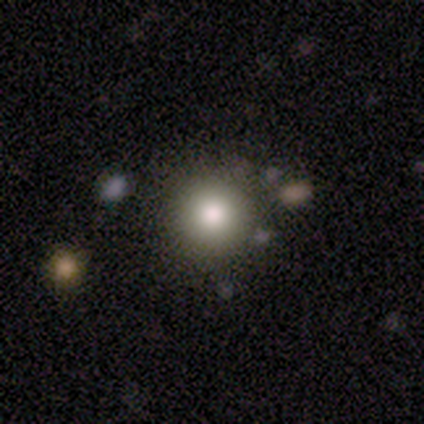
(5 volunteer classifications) Smooth or featured?
  - smooth: 80% *
  - star or artifact: 20%
  - featured or disk: 0%
How rounded?
  - round: 100% *
  - in between: 0%
  - cigar-shaped: 0%
Merging?
  - none: 75% *
  - minor disturbance: 25%
  - major disturbance: 0%
  - merger: 0%